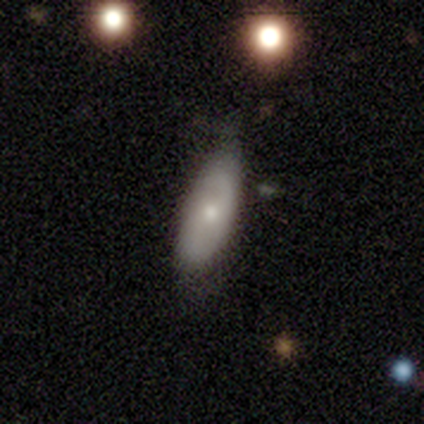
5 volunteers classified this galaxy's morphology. Smooth or featured? 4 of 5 (80%) said smooth. How rounded? 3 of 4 (75%) said in between. Merging? 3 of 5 (60%) said none.